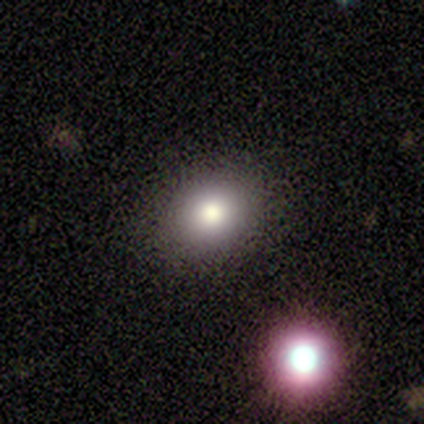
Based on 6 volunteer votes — Q: Smooth or featured?
A: smooth (83%); runner-up: star or artifact (17%)
Q: How rounded?
A: round (60%); runner-up: in between (40%)
Q: Merging?
A: none (100%)